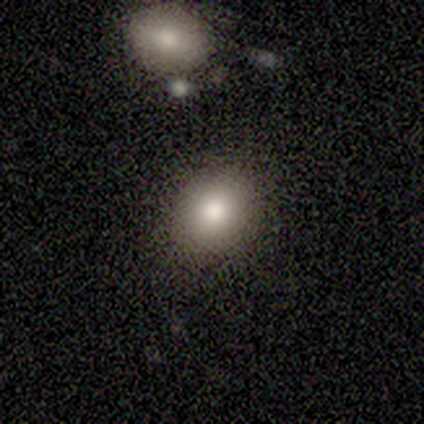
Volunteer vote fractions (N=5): Morphology: type=smooth (100%); roundness=round (60%); merging=none (100%).